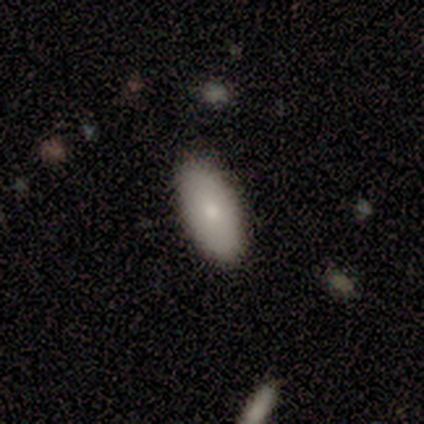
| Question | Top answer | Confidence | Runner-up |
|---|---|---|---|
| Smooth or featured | smooth | 89% | featured or disk (8%) |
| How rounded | in between | 85% | cigar-shaped (12%) |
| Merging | none | 86% | minor disturbance (11%) |